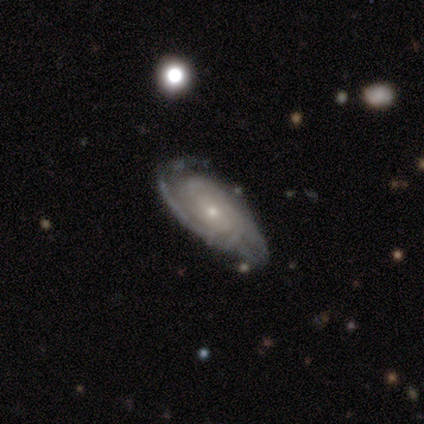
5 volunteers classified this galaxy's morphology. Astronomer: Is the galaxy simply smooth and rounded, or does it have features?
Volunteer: featured or disk — 80%.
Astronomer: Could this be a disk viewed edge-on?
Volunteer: no — 100%.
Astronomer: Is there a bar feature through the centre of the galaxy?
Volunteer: no — 100%.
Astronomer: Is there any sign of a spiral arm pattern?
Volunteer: yes — 100%.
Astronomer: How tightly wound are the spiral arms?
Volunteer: tight — 100%.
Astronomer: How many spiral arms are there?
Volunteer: can't tell — 50%.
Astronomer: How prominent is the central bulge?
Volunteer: small — 75%.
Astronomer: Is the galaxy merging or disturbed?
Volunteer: none — 60% (runner-up: minor disturbance, 40%).